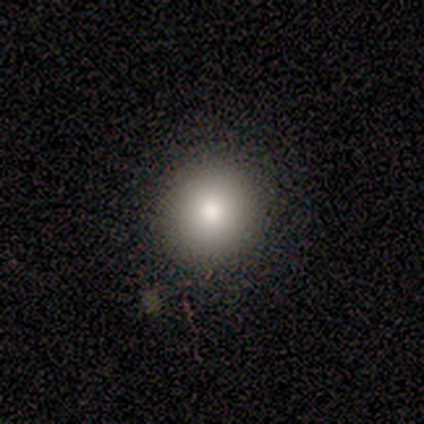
smooth_or_featured: smooth (p=0.80) [alt: featured or disk p=0.20]
how_rounded: round (p=1.00)
merging: none (p=1.00)